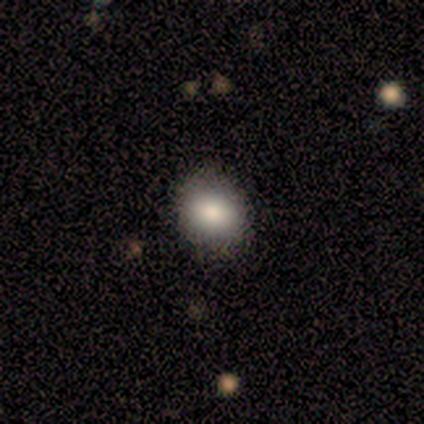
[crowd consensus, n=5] Smooth or featured? 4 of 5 (80%) said smooth. How rounded? 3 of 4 (75%) said in between. Merging? 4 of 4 (100%) said none.